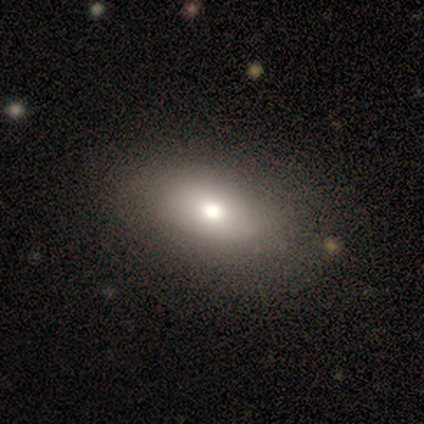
Smooth or featured?
  - smooth: 80% *
  - featured or disk: 20%
  - star or artifact: 0%
How rounded?
  - in between: 100% *
  - round: 0%
  - cigar-shaped: 0%
Merging?
  - none: 80% *
  - minor disturbance: 20%
  - major disturbance: 0%
  - merger: 0%